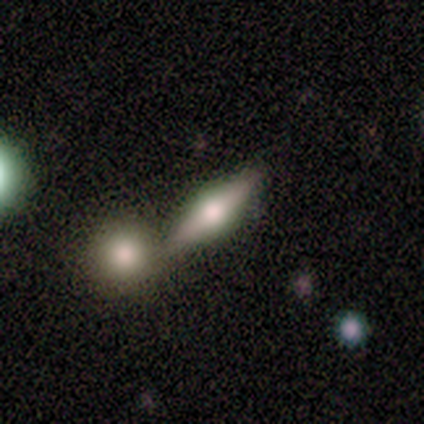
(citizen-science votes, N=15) This is likely a featured or disk galaxy (73%). It is clearly viewed edge-on (100%). Edge-on bulge: clearly rounded (100%). Merging: possibly none (50%).